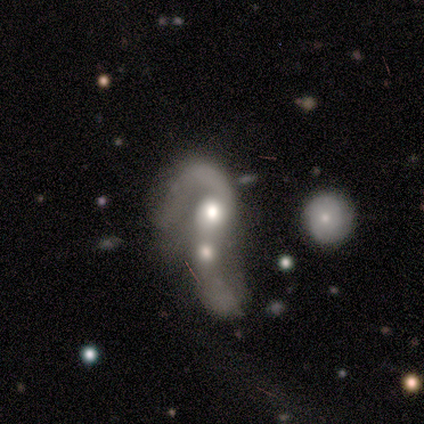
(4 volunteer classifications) Morphology: type=smooth (50%, tied with featured or disk); roundness=in between (100%); merging=merger (100%).